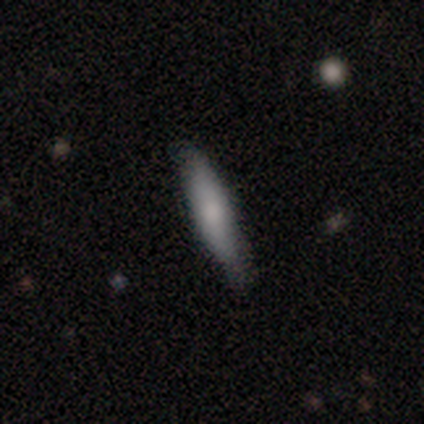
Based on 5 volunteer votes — Smooth or featured? featured or disk (60%)
Edge-on disk? no (67%)
Bar? weak (50%, tied with no)
Spiral arms? yes (50%, tied with no)
Spiral winding? loose (100%)
Spiral arm count? can't tell (100%)
Bulge size? large (50%, tied with moderate)
Merging? minor disturbance (60%)